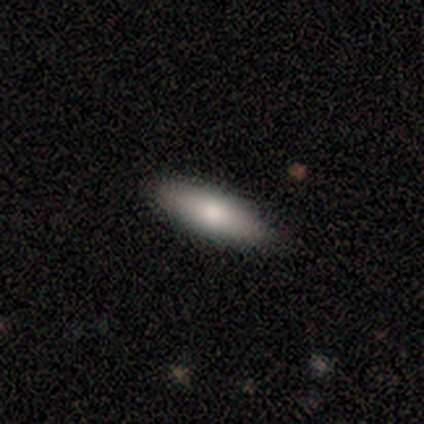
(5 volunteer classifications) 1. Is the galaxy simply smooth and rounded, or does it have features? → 80% smooth, 20% star or artifact, 0% featured or disk.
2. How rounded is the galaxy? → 75% in between, 25% cigar-shaped, 0% round.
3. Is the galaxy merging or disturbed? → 50% none (tied), 50% minor disturbance (tied), 0% major disturbance, 0% merger.